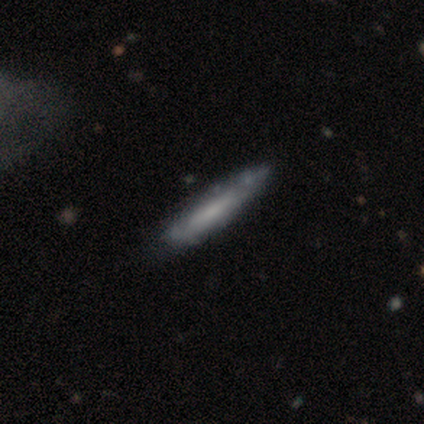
Smooth or featured? 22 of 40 (55%) said featured or disk. Edge-on disk? 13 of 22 (59%) said yes. Edge-on bulge? 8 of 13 (62%) said none. Merging? 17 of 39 (44%) said none.